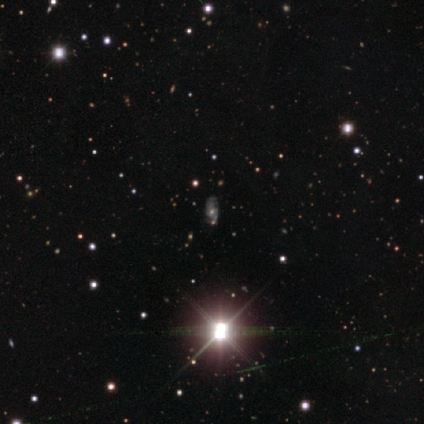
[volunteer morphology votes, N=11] Q: Smooth or featured?
A: featured or disk (45%); runner-up: star or artifact (36%)
Q: Edge-on disk?
A: no (100%)
Q: Bar?
A: no (60%); runner-up: weak (40%)
Q: Spiral arms?
A: yes (60%); runner-up: no (40%)
Q: Spiral winding?
A: loose (67%); runner-up: medium (33%)
Q: Spiral arm count?
A: can't tell (100%)
Q: Bulge size?
A: moderate (100%)
Q: Merging?
A: none (57%); runner-up: minor disturbance (14%)